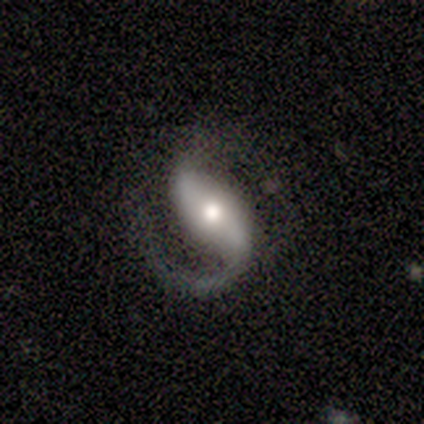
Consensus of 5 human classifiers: A featured or disk galaxy (80%) with a strong bar (75%), 2 (75%) medium (75%) spiral arms (100%) and a moderate central bulge (100%). Merging: none (60%).